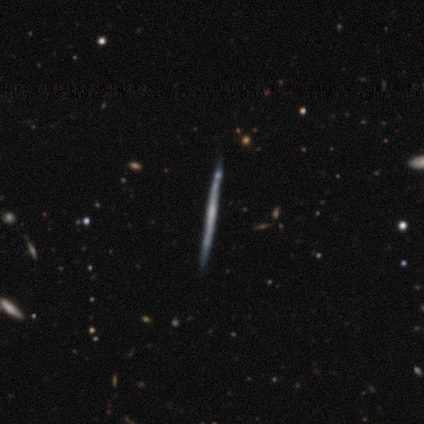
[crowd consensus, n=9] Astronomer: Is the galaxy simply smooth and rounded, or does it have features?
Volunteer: featured or disk — 100%.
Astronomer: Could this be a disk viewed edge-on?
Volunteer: yes — 100%.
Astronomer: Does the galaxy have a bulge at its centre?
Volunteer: none — 100%.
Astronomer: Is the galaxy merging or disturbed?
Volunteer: none — 67%.